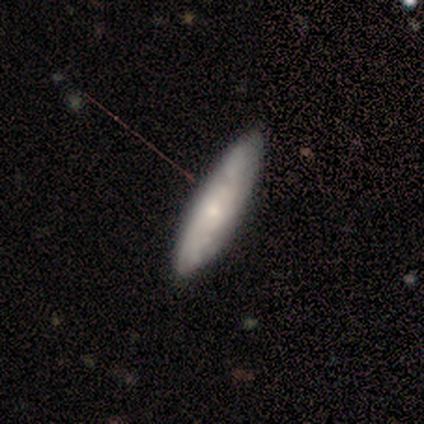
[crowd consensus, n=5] This appears to be a featured or disk galaxy (80%) viewed edge-on (75%) with a rounded central bulge (67%). Merging: none (100%).